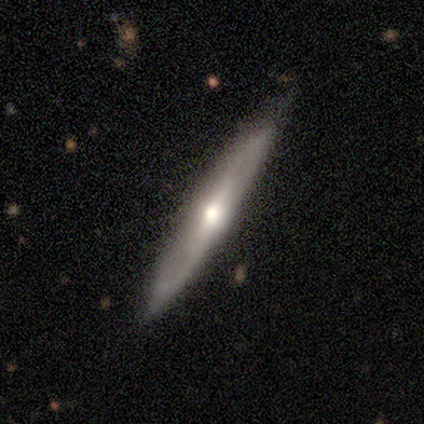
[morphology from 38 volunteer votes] Q: Smooth or featured?
A: featured or disk (55%); runner-up: smooth (42%)
Q: Edge-on disk?
A: yes (86%); runner-up: no (14%)
Q: Edge-on bulge?
A: rounded (83%); runner-up: none (17%)
Q: Merging?
A: none (86%); runner-up: minor disturbance (11%)